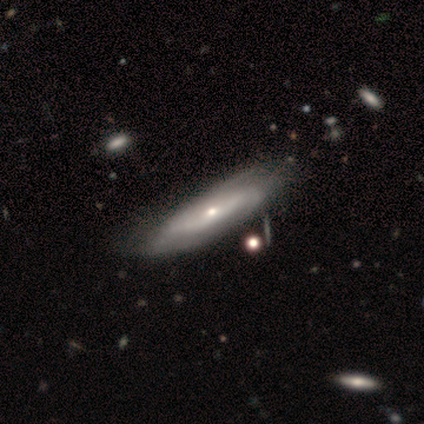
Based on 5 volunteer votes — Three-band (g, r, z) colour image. It shows a featured or disk galaxy (60%) with a weak bar (50%, tied with no), 2 (50%, tied with can't tell) tight (50%, tied with medium) spiral arms (100%) and a small central bulge (100%). Merging: none (60%).